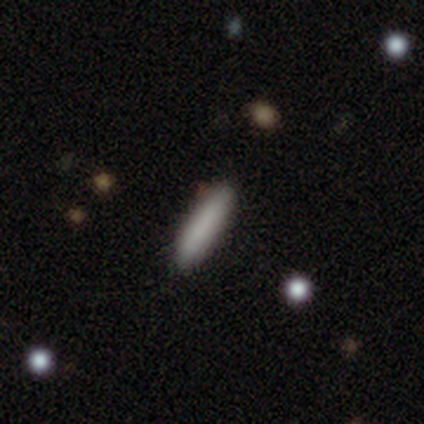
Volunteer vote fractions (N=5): A smooth galaxy with no disk features (100%) that is cigar-shaped (100%).

Vote fractions:
- Smooth or featured? smooth: 100% / featured or disk: 0% / star or artifact: 0%
- How rounded? cigar-shaped: 100% / round: 0% / in between: 0%
- Merging? none: 100% / minor disturbance: 0% / major disturbance: 0% / merger: 0%